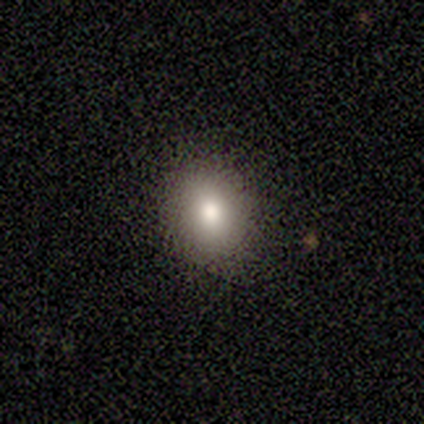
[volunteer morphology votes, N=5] type=smooth (80%); roundness=round (100%); merging=none (100%).